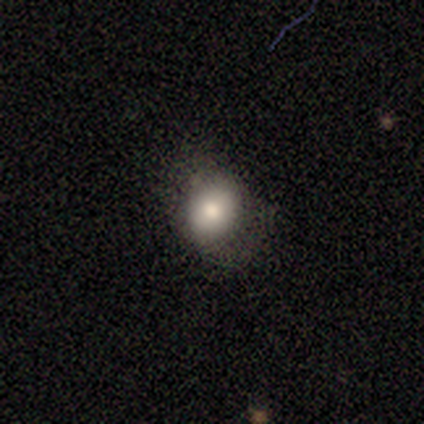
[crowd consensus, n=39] smooth 82%, featured or disk 13%, star or artifact 5%. Down the decision tree: how rounded — round (53%); merging — none (73%).